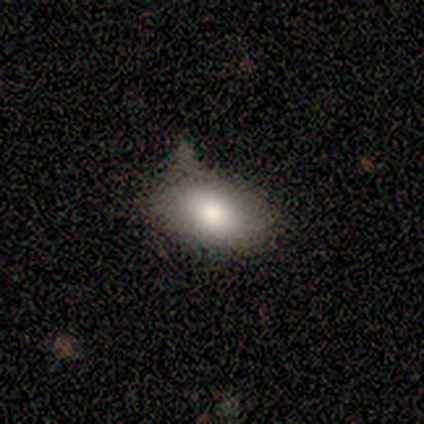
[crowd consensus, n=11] This appears to be a smooth galaxy with no disk features (82%) that is in between round and cigar-shaped (100%). Merging: none (60%).